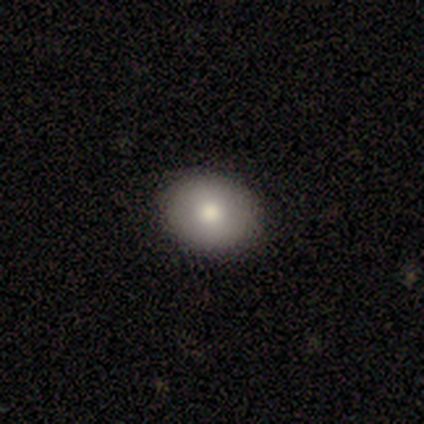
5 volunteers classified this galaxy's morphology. Volunteers were most divided on "how rounded": in between: 75%, round: 25%, cigar-shaped: 0%. More confident: smooth or featured — smooth (80%); merging — none (80%).